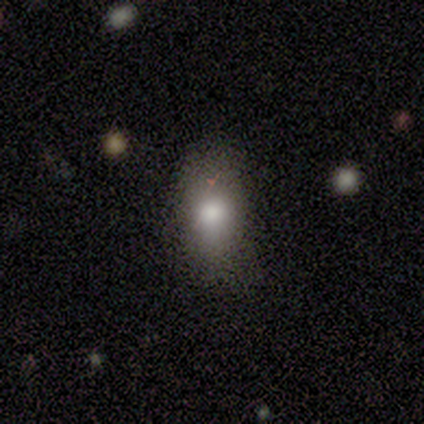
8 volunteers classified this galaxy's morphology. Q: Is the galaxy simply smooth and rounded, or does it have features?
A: smooth — 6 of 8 (75%).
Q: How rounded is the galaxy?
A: in between — 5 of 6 (83%).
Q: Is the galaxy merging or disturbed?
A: none — 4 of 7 (57%).